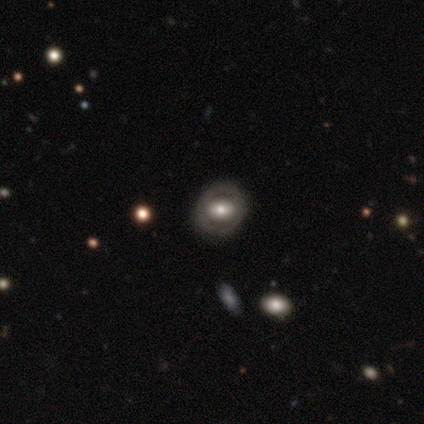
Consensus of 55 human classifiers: This is possibly a featured or disk galaxy (56%). It is clearly not viewed edge-on (97%). Bar: possibly no (53%). Spiral arm pattern: clearly no (80%). Central bulge: likely moderate (67%). Merging: clearly none (82%).